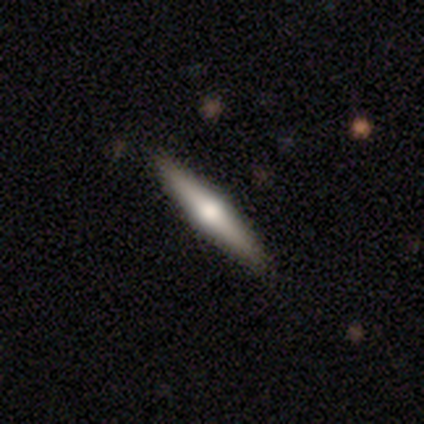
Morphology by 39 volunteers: Smooth or featured?
  - featured or disk: 69% *
  - smooth: 26%
  - star or artifact: 5%
Edge-on disk?
  - yes: 100% *
  - no: 0%
Edge-on bulge?
  - rounded: 100% *
  - boxy: 0%
  - none: 0%
Merging?
  - none: 51% *
  - minor disturbance: 3%
  - major disturbance: 0%
  - merger: 0%